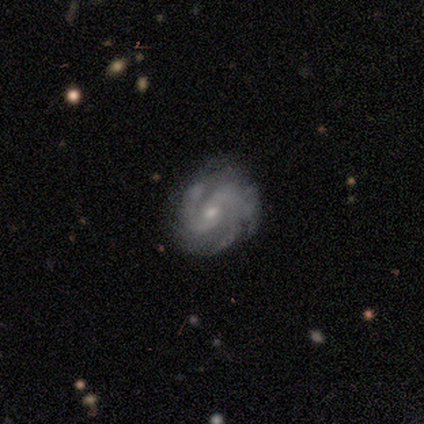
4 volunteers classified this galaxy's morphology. smooth-or-featured: featured or disk: 75% | star or artifact: 25% | smooth: 0%
  disk-edge-on: no: 100% | yes: 0%
    bar: no: 67% | strong: 33% | weak: 0%
    has-spiral-arms: yes: 67% | no: 33%
      spiral-winding: tight: 50% (tied) | medium: 50% (tied) | loose: 0%
      spiral-arm-count: 3: 100% | 1: 0% | 2: 0% | 4: 0% | more than 4: 0% | can't tell: 0%
    bulge-size: small: 67% | moderate: 33% | dominant: 0% | large: 0% | none: 0%
  merging: none: 33% (tied) | minor disturbance: 33% (tied) | merger: 33% (tied) | major disturbance: 0%